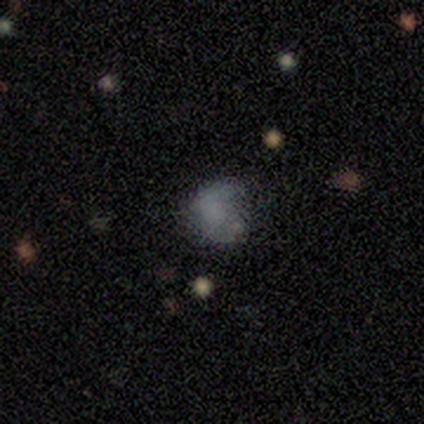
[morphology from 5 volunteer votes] Smooth or featured: smooth — 40% (tied with featured or disk — 40%)
How rounded: round — 50% (tied with in between — 50%)
Merging: none — 50% (tied with minor disturbance — 50%)